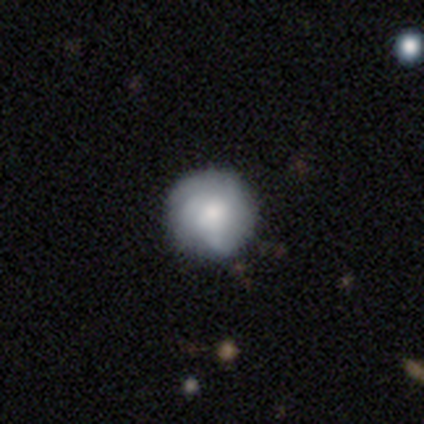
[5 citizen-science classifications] Smooth or featured?
  - smooth: 80% *
  - featured or disk: 20%
  - star or artifact: 0%
How rounded?
  - round: 100% *
  - in between: 0%
  - cigar-shaped: 0%
Merging?
  - none: 100% *
  - minor disturbance: 0%
  - major disturbance: 0%
  - merger: 0%